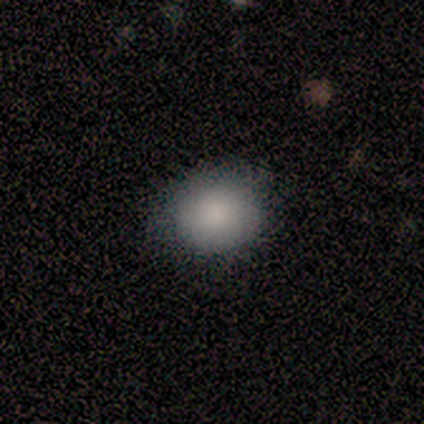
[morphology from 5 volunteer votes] smooth 80%, star or artifact 20%, featured or disk 0%. Down the decision tree: how rounded — round (50%, tied with in between); merging — none (100%).